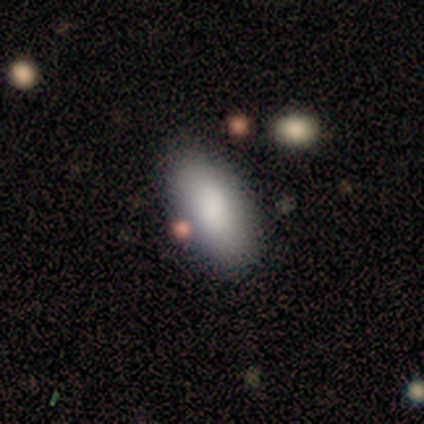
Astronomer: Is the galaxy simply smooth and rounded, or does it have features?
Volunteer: smooth — 95%.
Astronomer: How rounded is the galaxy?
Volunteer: in between — 86%.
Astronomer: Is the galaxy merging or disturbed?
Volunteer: none — 84%.